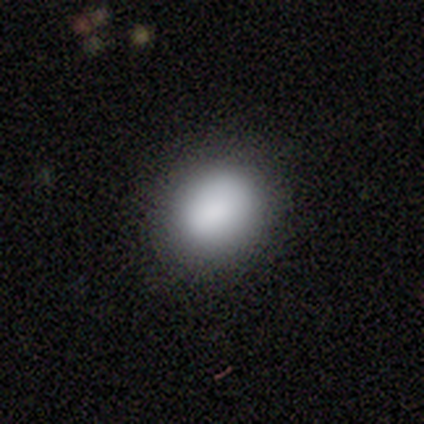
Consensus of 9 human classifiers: Smooth or featured?
  - smooth: 78% *
  - featured or disk: 22%
  - star or artifact: 0%
How rounded?
  - round: 57% *
  - in between: 43%
  - cigar-shaped: 0%
Merging?
  - none: 78% *
  - minor disturbance: 11%
  - merger: 11%
  - major disturbance: 0%